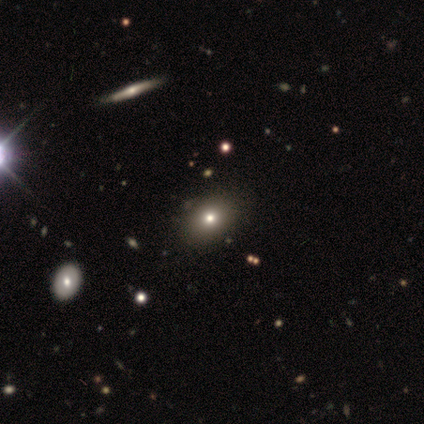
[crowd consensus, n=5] smooth-or-featured: smooth: 80% | star or artifact: 20% | featured or disk: 0%
  how-rounded: in between: 100% | round: 0% | cigar-shaped: 0%
  merging: none: 100% | minor disturbance: 0% | major disturbance: 0% | merger: 0%